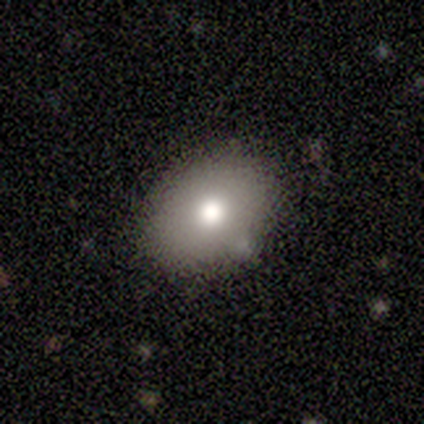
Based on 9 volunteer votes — This is likely a smooth galaxy (78%). How rounded: clearly in between (86%). Merging: likely none (67%).